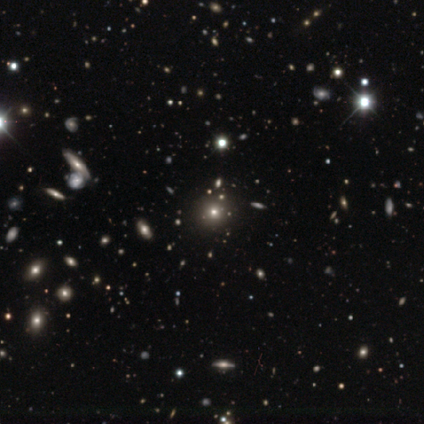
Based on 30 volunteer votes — Overall: star or artifact (53%; smooth 37%).